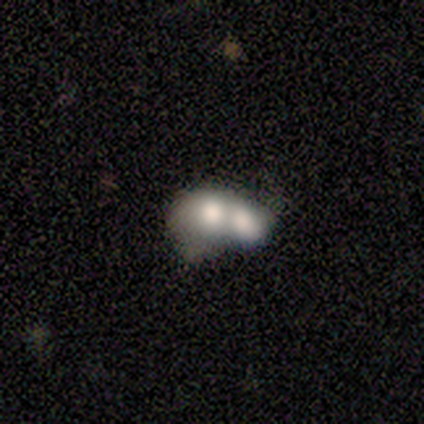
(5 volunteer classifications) A smooth galaxy with no disk features (60%) that is in between round and cigar-shaped (100%).

Vote fractions:
- Smooth or featured? smooth: 60% / featured or disk: 40% / star or artifact: 0%
- How rounded? in between: 100% / round: 0% / cigar-shaped: 0%
- Merging? merger: 100% / none: 0% / minor disturbance: 0% / major disturbance: 0%